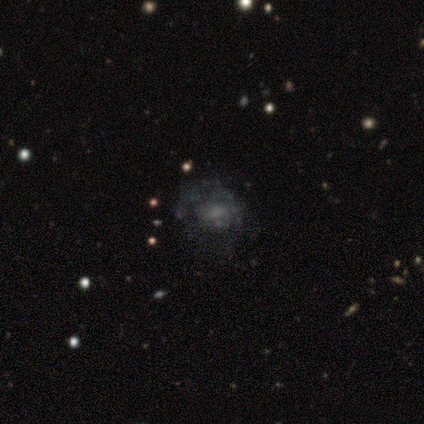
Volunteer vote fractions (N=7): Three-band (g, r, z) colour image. It shows a featured or disk galaxy (100%) with a weak bar (57%), no spiral arms (86%) and a moderate central bulge (86%). Merging: minor disturbance (43%).